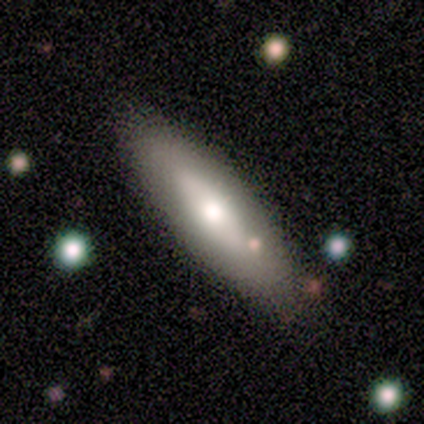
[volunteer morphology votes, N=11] Smooth or featured? 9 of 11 (82%) said smooth. How rounded? 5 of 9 (56%) said cigar-shaped. Merging? 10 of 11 (91%) said none.